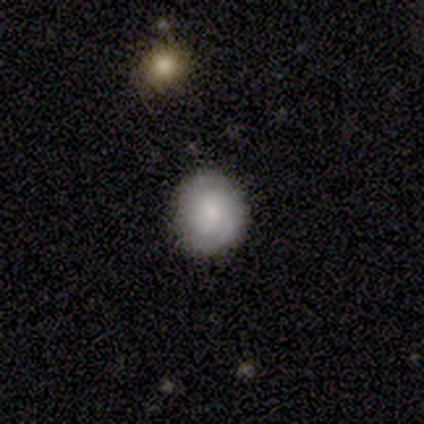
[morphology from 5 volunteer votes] A smooth galaxy with no disk features (60%) that is in between round and cigar-shaped (67%).

Vote fractions:
- Smooth or featured? smooth: 60% / featured or disk: 40% / star or artifact: 0%
- How rounded? in between: 67% / round: 33% / cigar-shaped: 0%
- Merging? none: 60% / minor disturbance: 40% / major disturbance: 0% / merger: 0%